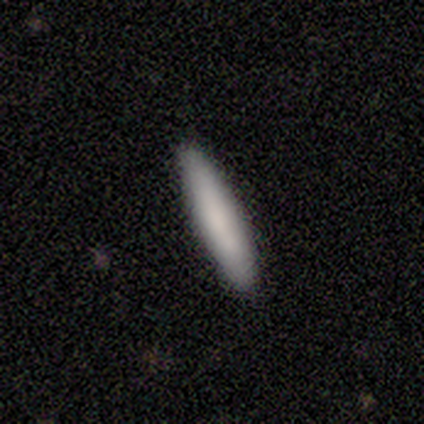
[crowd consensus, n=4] Overall: smooth (50%, tied with featured or disk). How rounded: cigar-shaped (100%). Merging: none (100%).